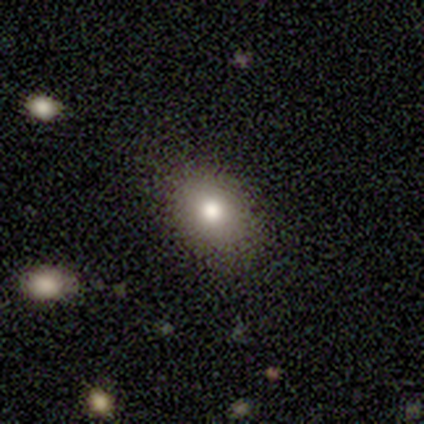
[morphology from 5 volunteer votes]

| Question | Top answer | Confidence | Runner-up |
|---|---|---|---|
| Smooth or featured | smooth | 100% | — |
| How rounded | in between | 80% | round (20%) |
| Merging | none | 100% | — |